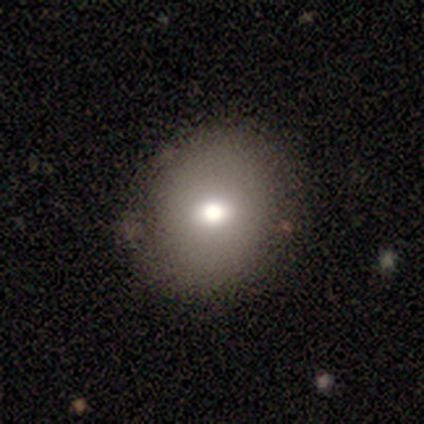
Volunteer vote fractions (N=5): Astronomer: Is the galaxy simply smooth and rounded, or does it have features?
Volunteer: smooth — 80%.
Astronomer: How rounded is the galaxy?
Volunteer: in between — 75%.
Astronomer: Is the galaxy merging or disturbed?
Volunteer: minor disturbance — 60% (runner-up: none, 40%).